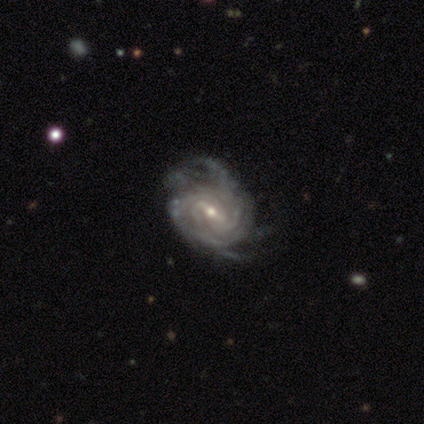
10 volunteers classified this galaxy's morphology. Smooth or featured?
  - featured or disk: 100% *
  - smooth: 0%
  - star or artifact: 0%
Edge-on disk?
  - no: 90% *
  - yes: 10%
Bar?
  - strong: 44% * (tied)
  - weak: 44% * (tied)
  - no: 11%
Spiral arms?
  - yes: 100% *
  - no: 0%
Spiral winding?
  - tight: 78% *
  - medium: 22%
  - loose: 0%
Spiral arm count?
  - 3: 33% * (tied)
  - 4: 33% * (tied)
  - can't tell: 22%
  - more than 4: 11%
  - 1: 0%
  - 2: 0%
Bulge size?
  - small: 56% *
  - moderate: 44%
  - dominant: 0%
  - large: 0%
  - none: 0%
Merging?
  - none: 70% *
  - minor disturbance: 20%
  - major disturbance: 10%
  - merger: 0%